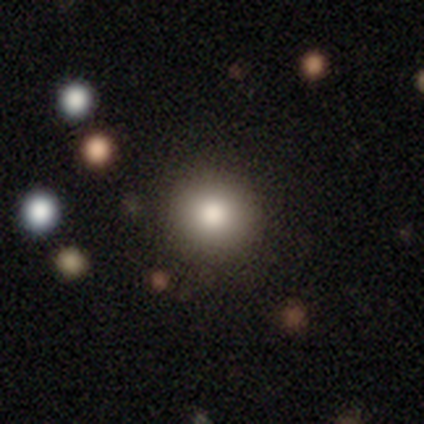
smooth_or_featured: smooth (p=0.87) [alt: featured or disk p=0.07]
how_rounded: round (p=1.00)
merging: none (p=0.79) [alt: minor disturbance p=0.21]